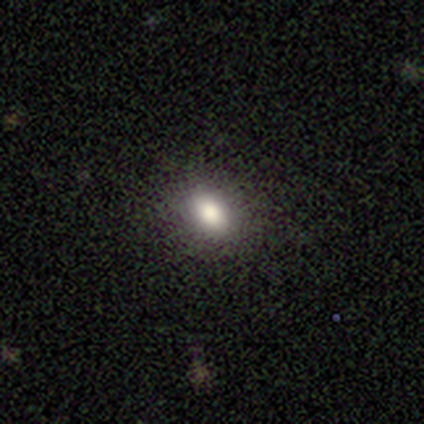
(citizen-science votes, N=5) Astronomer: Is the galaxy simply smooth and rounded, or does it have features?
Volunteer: smooth — 60%.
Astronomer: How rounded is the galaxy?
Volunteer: in between — 100%.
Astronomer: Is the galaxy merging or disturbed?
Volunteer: none — 100%.